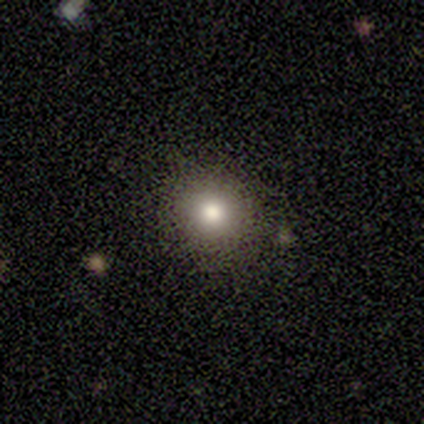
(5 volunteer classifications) A smooth galaxy with no disk features (60%) that is round (100%).

Vote fractions:
- Smooth or featured? smooth: 60% / featured or disk: 20% / star or artifact: 20%
- How rounded? round: 100% / in between: 0% / cigar-shaped: 0%
- Merging? none: 100% / minor disturbance: 0% / major disturbance: 0% / merger: 0%